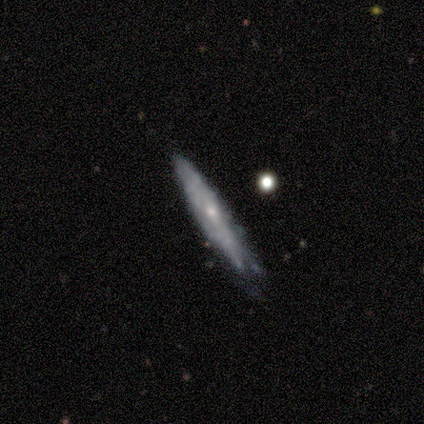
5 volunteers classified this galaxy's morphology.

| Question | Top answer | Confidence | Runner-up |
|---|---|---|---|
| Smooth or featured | featured or disk | 80% | smooth (20%) |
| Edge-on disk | yes | 75% | no (25%) |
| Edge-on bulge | rounded | 67% | none (33%) |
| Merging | none | 60% | minor disturbance (40%) |